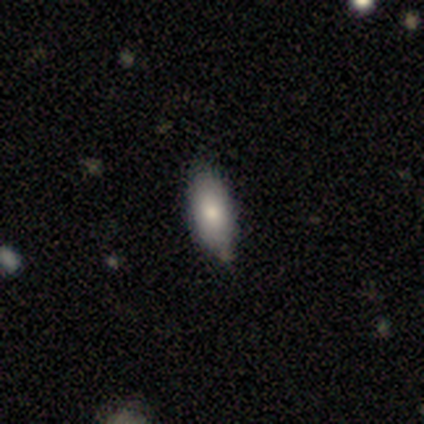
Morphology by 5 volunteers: Smooth or featured: smooth — 100%
How rounded: in between — 80% (round — 20%)
Merging: minor disturbance — 60% (none — 40%)